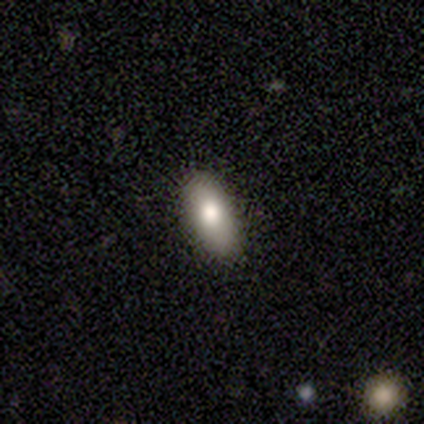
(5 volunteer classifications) This is clearly a smooth galaxy (80%). How rounded: clearly in between (100%). Merging: clearly none (100%).